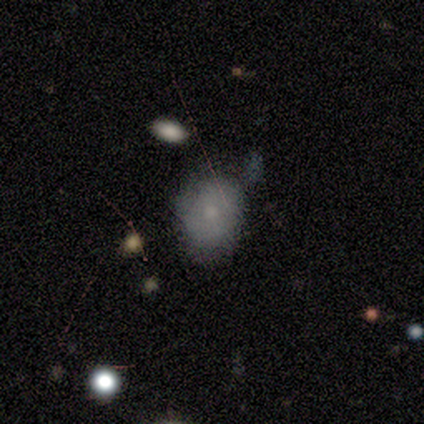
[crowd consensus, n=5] Smooth or featured?
  - smooth: 100% *
  - featured or disk: 0%
  - star or artifact: 0%
How rounded?
  - round: 60% *
  - in between: 40%
  - cigar-shaped: 0%
Merging?
  - none: 60% *
  - minor disturbance: 20%
  - major disturbance: 20%
  - merger: 0%